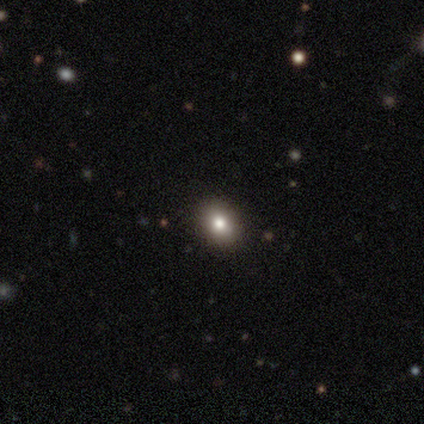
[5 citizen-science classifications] Smooth or featured? smooth (80%)
How rounded? round (50%, tied with in between)
Merging? none (80%)